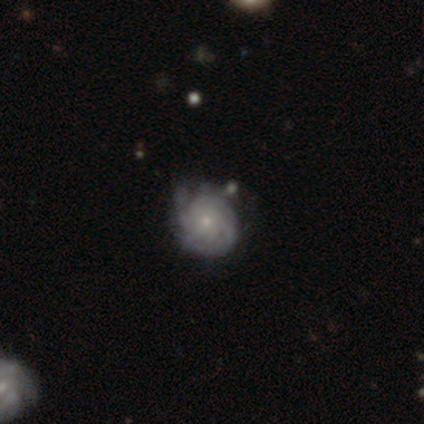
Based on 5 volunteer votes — A featured or disk galaxy (80%) with no bar (75%), 3 (25%, tied with 4, more than 4 and can't tell) tight (75%) spiral arms (100%) and a small central bulge (75%). Merging: none (80%).